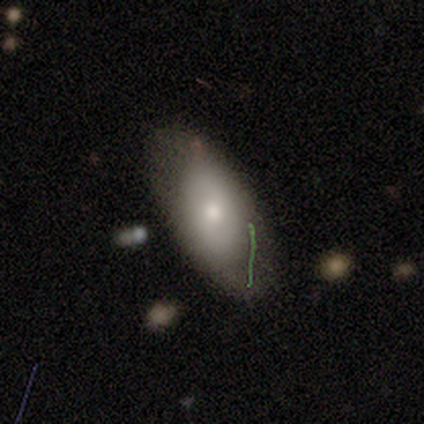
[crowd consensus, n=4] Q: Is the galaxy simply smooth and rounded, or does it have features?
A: featured or disk — 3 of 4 (75%).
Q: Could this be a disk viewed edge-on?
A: no — 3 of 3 (100%).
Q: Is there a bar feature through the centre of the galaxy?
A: no — 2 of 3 (67%).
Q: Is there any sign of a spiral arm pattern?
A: no — 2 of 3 (67%).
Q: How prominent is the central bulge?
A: small — 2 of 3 (67%).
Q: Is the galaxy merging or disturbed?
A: none — 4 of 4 (100%).